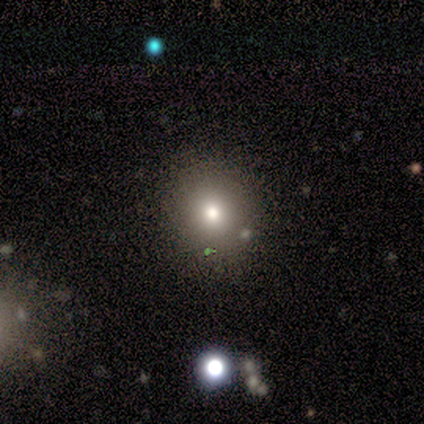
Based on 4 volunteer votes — smooth_or_featured: smooth (p=1.00)
how_rounded: round (p=0.75) [alt: cigar-shaped p=0.25]
merging: none (p=0.50) [tied with: minor disturbance p=0.50]